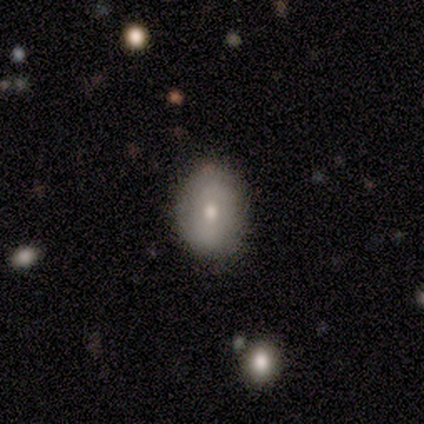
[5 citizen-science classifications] A smooth galaxy with no disk features (80%) that is in between round and cigar-shaped (75%). Merging: none (80%).